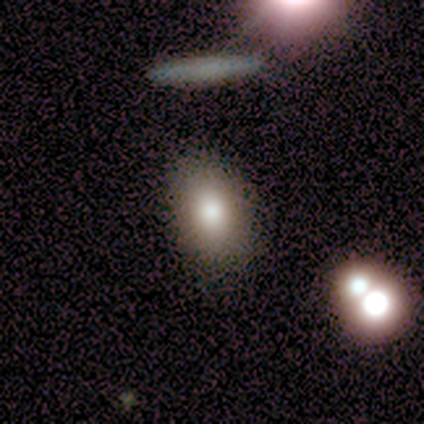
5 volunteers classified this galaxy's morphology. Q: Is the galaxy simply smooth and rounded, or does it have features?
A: smooth — 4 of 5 (80%).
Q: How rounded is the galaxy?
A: in between — 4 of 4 (100%).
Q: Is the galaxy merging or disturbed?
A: none — 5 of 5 (100%).